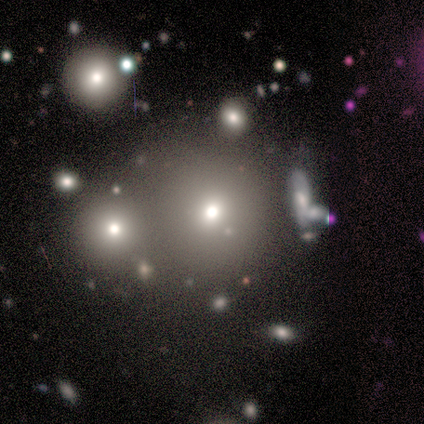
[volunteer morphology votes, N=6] This is likely a smooth galaxy (67%). How rounded: clearly round (100%). Merging: possibly none (50%, tied with merger).